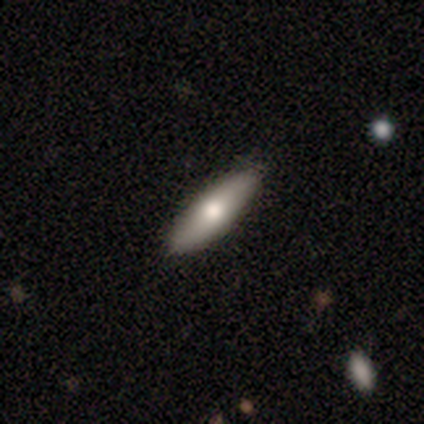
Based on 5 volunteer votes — Smooth or featured?
  - smooth: 60% *
  - featured or disk: 40%
  - star or artifact: 0%
How rounded?
  - round: 33% * (tied)
  - in between: 33% * (tied)
  - cigar-shaped: 33% * (tied)
Merging?
  - none: 100% *
  - minor disturbance: 0%
  - major disturbance: 0%
  - merger: 0%